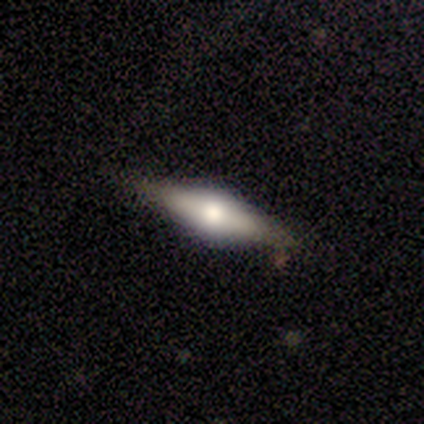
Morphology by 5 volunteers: Volunteers were most divided on "smooth or featured": featured or disk: 60%, smooth: 40%, star or artifact: 0%. More confident: edge-on disk — yes (100%); edge-on bulge — rounded (100%); merging — none (80%).